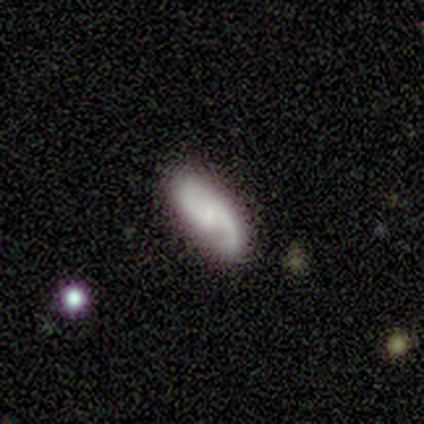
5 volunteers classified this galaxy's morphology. A featured or disk galaxy (80%) with a weak bar (75%), 2 (100%) loose (100%) spiral arms (100%) and a small central bulge (50%, tied with none). Merging: none (100%).